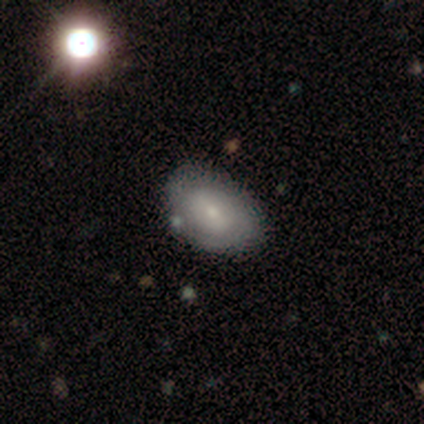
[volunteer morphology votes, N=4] Volunteers were most divided on "smooth or featured" (2-way tie): smooth: 50%, featured or disk: 50%, star or artifact: 0%. More confident: how rounded — in between (100%); merging — none (75%).